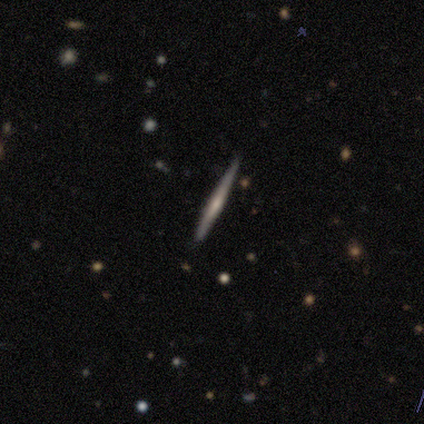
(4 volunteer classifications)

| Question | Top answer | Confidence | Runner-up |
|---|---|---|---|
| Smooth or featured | featured or disk | 75% | smooth (25%) |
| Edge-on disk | yes | 100% | — |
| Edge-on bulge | rounded | 67% | none (33%) |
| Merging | none | 75% | minor disturbance (25%) |